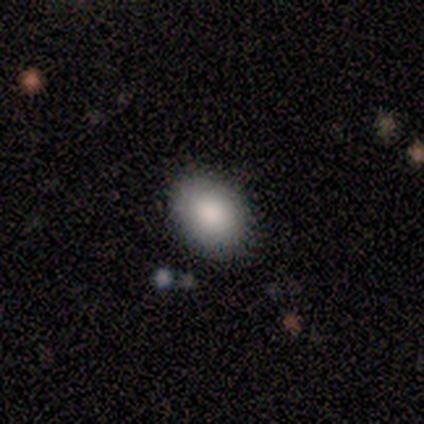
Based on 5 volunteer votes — Volunteers were most divided on "smooth or featured": smooth: 80%, star or artifact: 20%, featured or disk: 0%. More confident: how rounded — in between (100%); merging — none (100%).